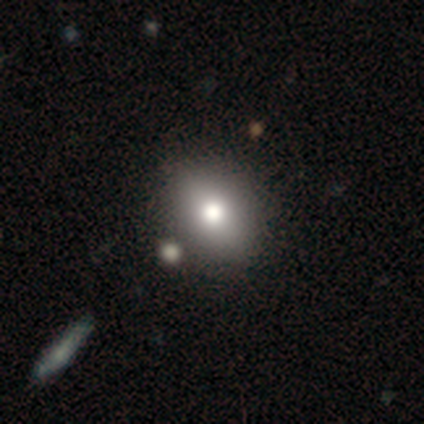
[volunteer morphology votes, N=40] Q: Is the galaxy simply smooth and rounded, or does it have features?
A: smooth — 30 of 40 (75%).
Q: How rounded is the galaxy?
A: in between — 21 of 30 (70%).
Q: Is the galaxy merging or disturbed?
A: none — 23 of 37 (62%).